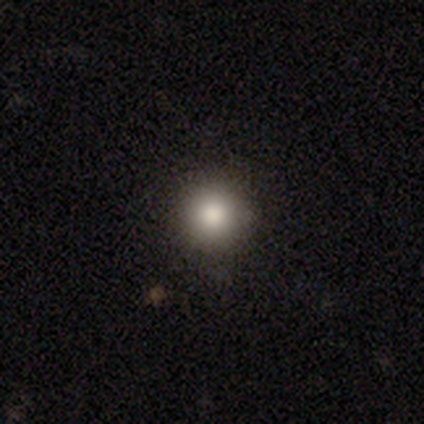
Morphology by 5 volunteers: Smooth or featured? smooth (100%)
How rounded? round (100%)
Merging? none (100%)